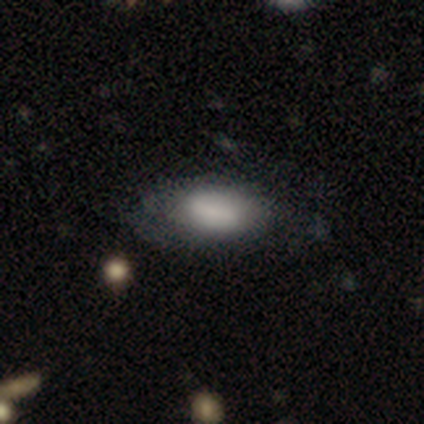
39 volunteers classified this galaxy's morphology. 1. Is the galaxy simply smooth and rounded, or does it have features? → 79% smooth, 18% featured or disk, 3% star or artifact.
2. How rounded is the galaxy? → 97% in between, 3% cigar-shaped, 0% round.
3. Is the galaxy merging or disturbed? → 63% none, 26% minor disturbance, 11% major disturbance, 0% merger.